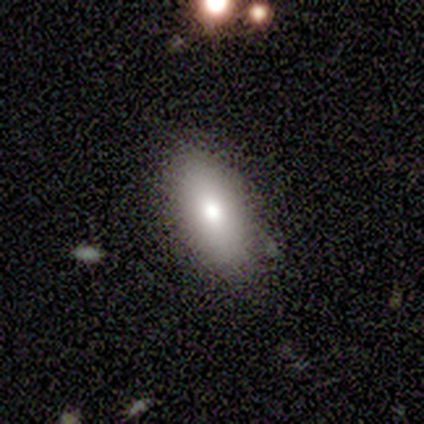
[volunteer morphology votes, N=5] Smooth or featured? 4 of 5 (80%) said smooth. How rounded? 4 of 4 (100%) said in between. Merging? 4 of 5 (80%) said none.